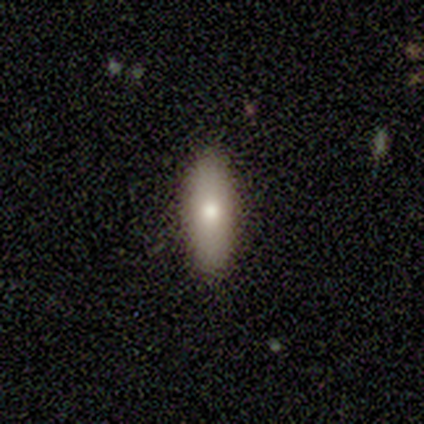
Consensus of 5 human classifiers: Overall: smooth (80%). How rounded: cigar-shaped (75%). Merging: none (100%).